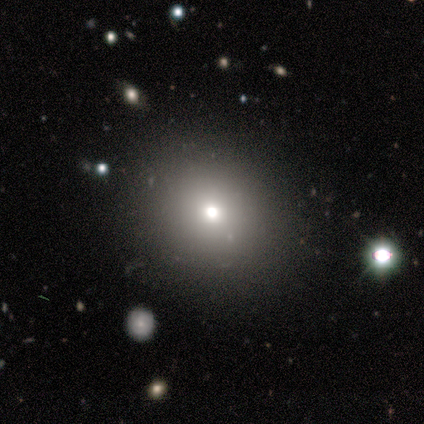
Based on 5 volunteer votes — Smooth or featured?
  - smooth: 80% *
  - featured or disk: 20%
  - star or artifact: 0%
How rounded?
  - round: 75% *
  - cigar-shaped: 25%
  - in between: 0%
Merging?
  - none: 60% *
  - minor disturbance: 40%
  - major disturbance: 0%
  - merger: 0%